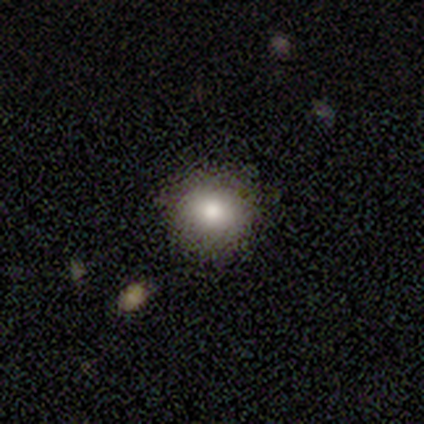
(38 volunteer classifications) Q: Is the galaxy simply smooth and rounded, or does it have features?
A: smooth — 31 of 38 (82%).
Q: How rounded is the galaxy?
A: round — 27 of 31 (87%).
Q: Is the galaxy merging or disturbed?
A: none — 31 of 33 (94%).